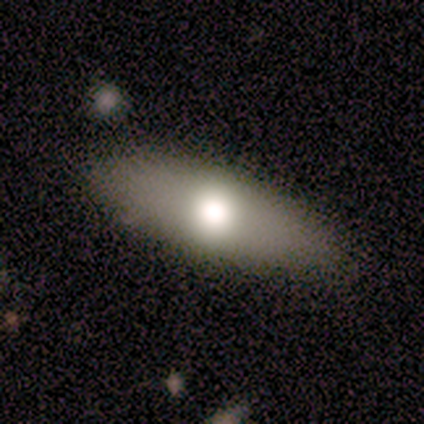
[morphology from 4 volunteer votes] This appears to be a smooth galaxy with no disk features (100%) that is in between round and cigar-shaped (100%). Merging: none (100%).